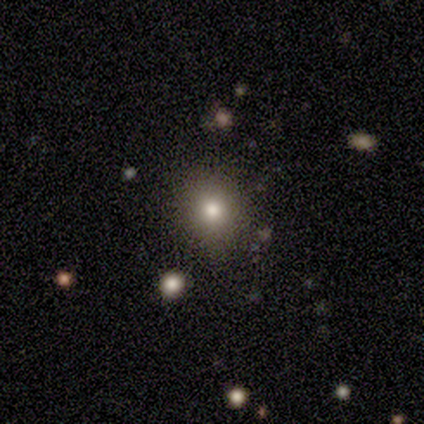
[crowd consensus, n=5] Volunteers were most divided on "smooth or featured": smooth: 80%, star or artifact: 20%, featured or disk: 0%. More confident: how rounded — round (100%); merging — none (100%).